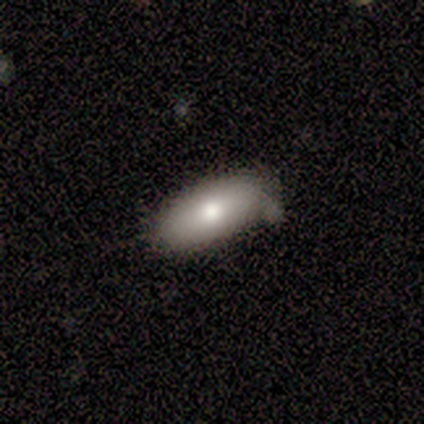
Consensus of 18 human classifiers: A smooth galaxy with no disk features (100%) that is in between round and cigar-shaped (89%). Merging: none (83%).